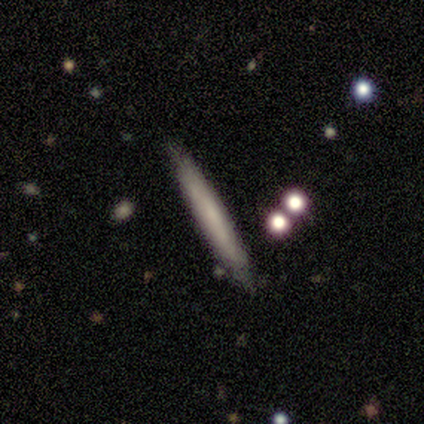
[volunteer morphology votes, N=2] smooth_or_featured: featured or disk (p=1.00)
disk_edge_on: yes (p=1.00)
edge_on_bulge: none (p=1.00)
merging: minor disturbance (p=1.00)